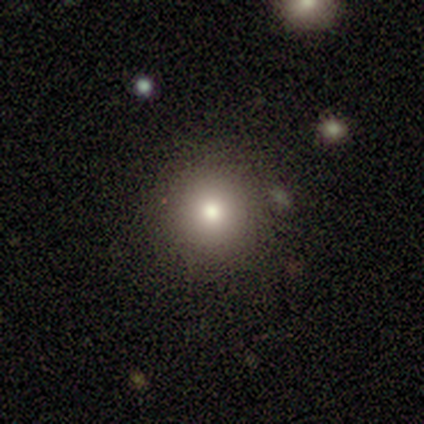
smooth_or_featured: smooth (p=1.00)
how_rounded: round (p=1.00)
merging: none (p=1.00)